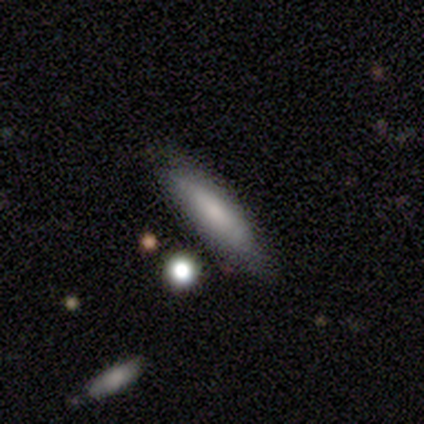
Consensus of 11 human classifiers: Smooth or featured? 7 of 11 (64%) said smooth. How rounded? 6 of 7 (86%) said cigar-shaped. Merging? 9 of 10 (90%) said none.